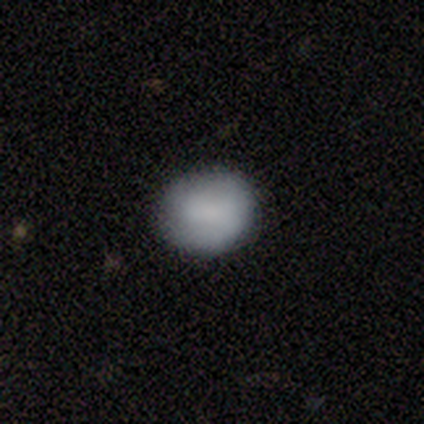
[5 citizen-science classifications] Smooth or featured? 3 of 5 (60%) said smooth. How rounded? 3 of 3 (100%) said round. Merging? 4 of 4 (100%) said none.